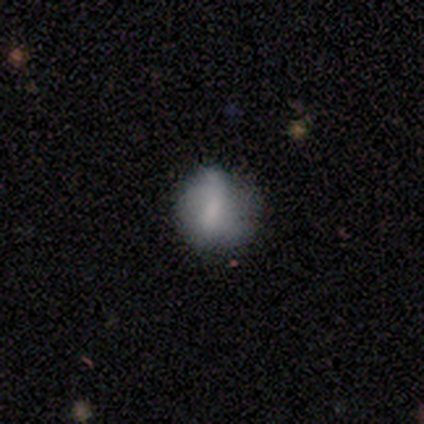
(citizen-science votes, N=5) A smooth galaxy with no disk features (80%) that is round (50%, tied with in between). Merging: none (40%, tied with minor disturbance).